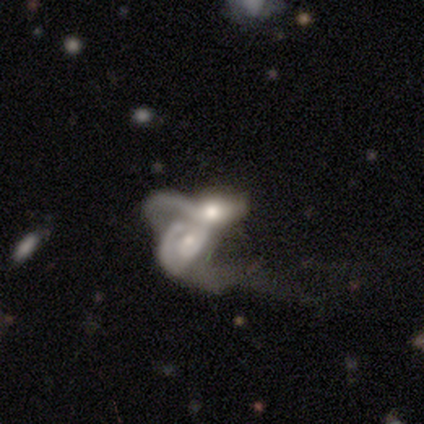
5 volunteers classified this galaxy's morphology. A featured or disk galaxy (40%, tied with star or artifact) with no bar (100%), no spiral arms (100%) and a moderate central bulge (50%, tied with none).

Vote fractions:
- Smooth or featured? featured or disk: 40% (tied) / star or artifact: 40% (tied) / smooth: 20%
- Edge-on disk? no: 100% / yes: 0%
- Bar? no: 100% / strong: 0% / weak: 0%
- Spiral arms? no: 100% / yes: 0%
- Bulge size? moderate: 50% (tied) / none: 50% (tied) / dominant: 0% / large: 0% / small: 0%
- Merging? merger: 67% / minor disturbance: 33% / none: 0% / major disturbance: 0%